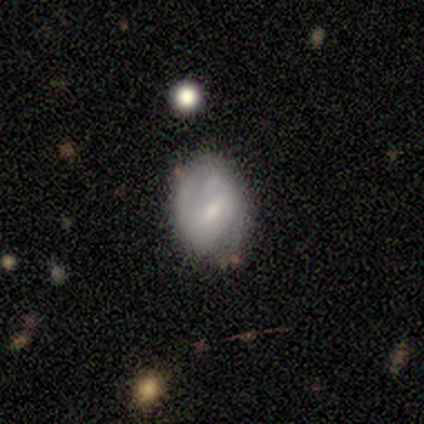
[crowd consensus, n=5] featured or disk 60%, smooth 40%, star or artifact 0%. Down the decision tree: edge-on disk — no (100%); bar — weak (67%); spiral arms — yes (67%); spiral arm count — 1 (50%, tied with 2); spiral winding — medium (50%, tied with loose); bulge size — small (67%); merging — none (80%).